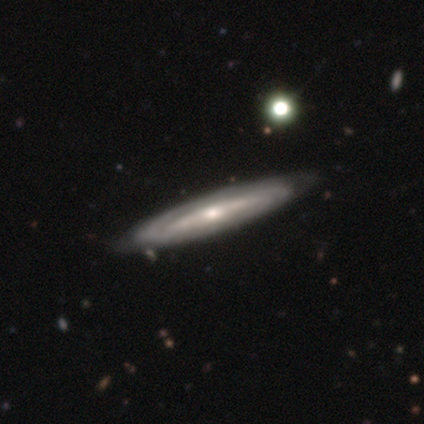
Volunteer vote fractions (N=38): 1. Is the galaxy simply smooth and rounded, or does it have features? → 84% featured or disk, 13% smooth, 3% star or artifact.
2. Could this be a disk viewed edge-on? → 59% yes, 41% no.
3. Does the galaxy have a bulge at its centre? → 79% rounded, 21% none, 0% boxy.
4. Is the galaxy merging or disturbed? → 81% none, 14% minor disturbance, 5% major disturbance, 0% merger.